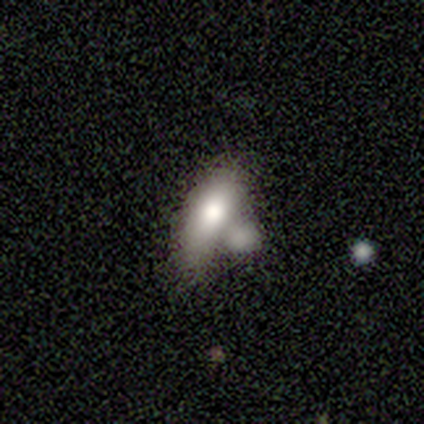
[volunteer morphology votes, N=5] Smooth or featured? 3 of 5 (60%) said smooth. How rounded? 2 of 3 (67%) said cigar-shaped. Merging? 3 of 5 (60%) said merger.